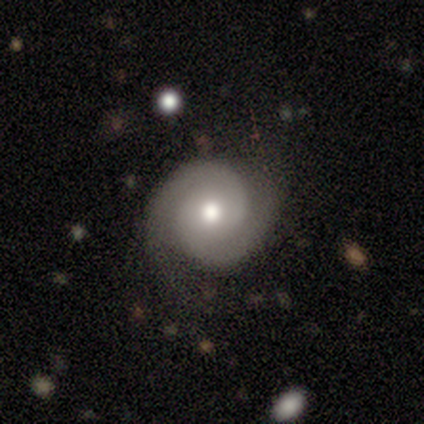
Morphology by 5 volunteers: Smooth or featured?
  - featured or disk: 60% *
  - smooth: 40%
  - star or artifact: 0%
Edge-on disk?
  - no: 100% *
  - yes: 0%
Bar?
  - no: 100% *
  - strong: 0%
  - weak: 0%
Spiral arms?
  - yes: 100% *
  - no: 0%
Spiral winding?
  - tight: 100% *
  - medium: 0%
  - loose: 0%
Spiral arm count?
  - 2: 100% *
  - 1: 0%
  - 3: 0%
  - 4: 0%
  - more than 4: 0%
  - can't tell: 0%
Bulge size?
  - moderate: 100% *
  - dominant: 0%
  - large: 0%
  - small: 0%
  - none: 0%
Merging?
  - none: 80% *
  - minor disturbance: 20%
  - major disturbance: 0%
  - merger: 0%